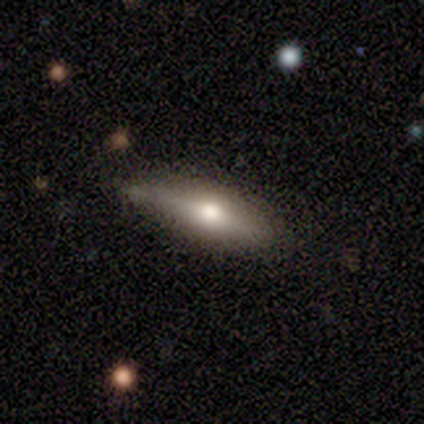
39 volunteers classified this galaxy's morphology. smooth_or_featured: featured or disk (p=0.51) [alt: smooth p=0.38]
disk_edge_on: yes (p=0.95) [alt: no p=0.05]
edge_on_bulge: rounded (p=1.00)
merging: none (p=0.71) [alt: minor disturbance p=0.26]